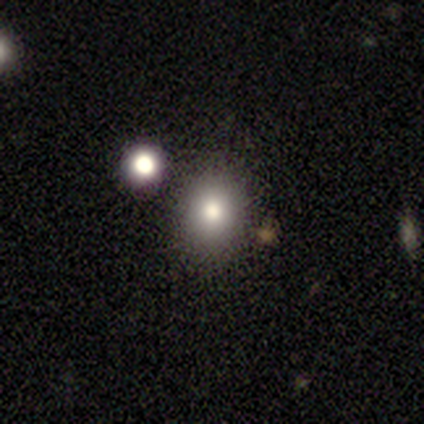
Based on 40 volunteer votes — Smooth or featured: smooth — 75% (featured or disk — 18%)
How rounded: in between — 53% (round — 47%)
Merging: none — 62% (merger — 22%)